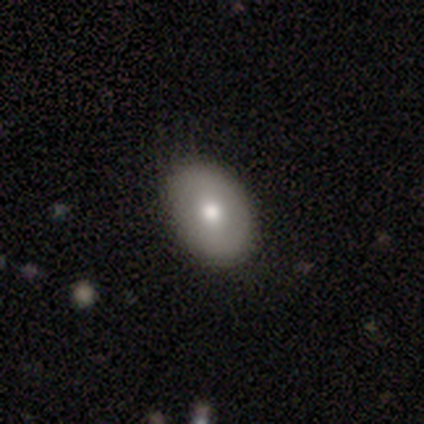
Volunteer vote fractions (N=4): Smooth or featured: smooth — 100%
How rounded: in between — 100%
Merging: none — 100%